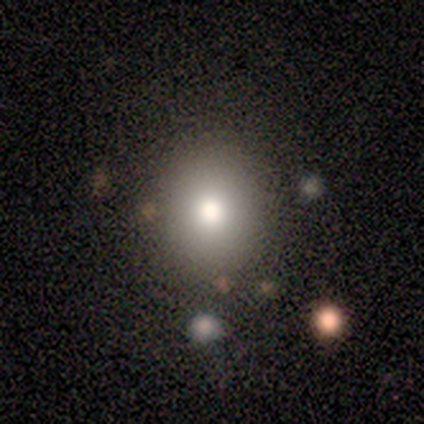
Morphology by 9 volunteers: A smooth galaxy with no disk features (67%) that is round (50%, tied with in between).

Vote fractions:
- Smooth or featured? smooth: 67% / featured or disk: 22% / star or artifact: 11%
- How rounded? round: 50% (tied) / in between: 50% (tied) / cigar-shaped: 0%
- Merging? none: 88% / minor disturbance: 12% / major disturbance: 0% / merger: 0%